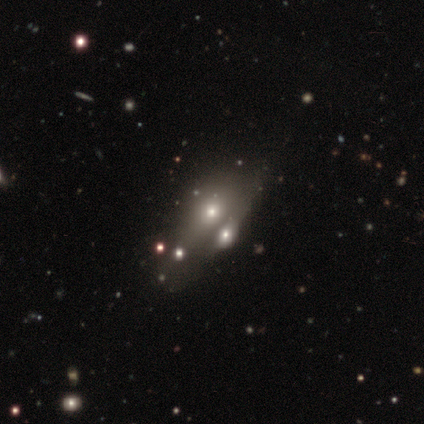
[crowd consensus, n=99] Morphology: type=smooth (43%); roundness=in between (65%); merging=merger (52%).